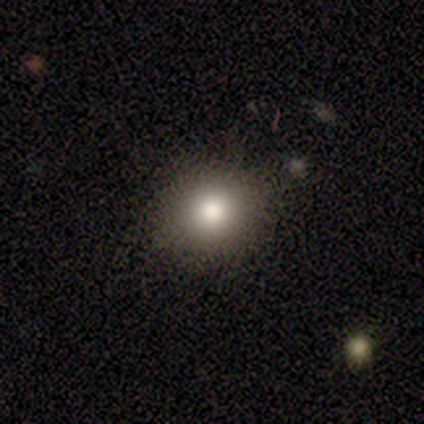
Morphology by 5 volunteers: This appears to be a smooth galaxy with no disk features (80%) that is round (75%). Merging: none (100%).